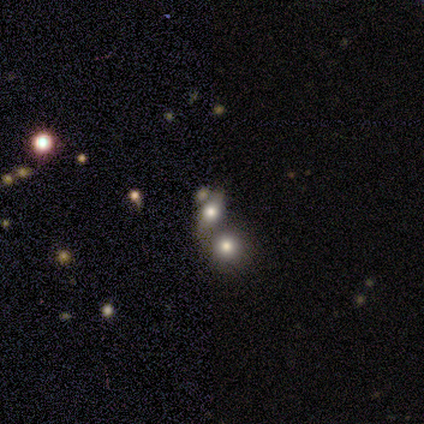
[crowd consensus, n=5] A smooth galaxy with no disk features (80%) that is round (50%, tied with in between).

Vote fractions:
- Smooth or featured? smooth: 80% / featured or disk: 20% / star or artifact: 0%
- How rounded? round: 50% (tied) / in between: 50% (tied) / cigar-shaped: 0%
- Merging? merger: 60% / none: 40% / minor disturbance: 0% / major disturbance: 0%